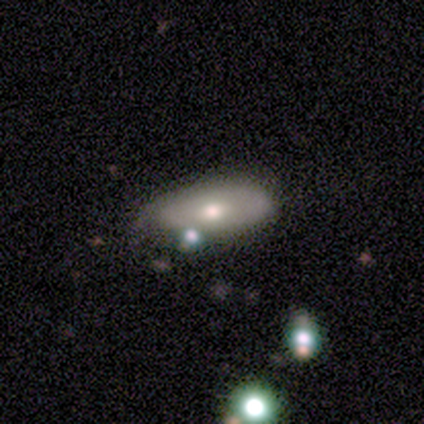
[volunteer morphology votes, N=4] Smooth or featured?
  - featured or disk: 75% *
  - star or artifact: 25%
  - smooth: 0%
Edge-on disk?
  - no: 67% *
  - yes: 33%
Bar?
  - no: 100% *
  - strong: 0%
  - weak: 0%
Spiral arms?
  - yes: 50% * (tied)
  - no: 50% * (tied)
Spiral winding?
  - tight: 100% *
  - medium: 0%
  - loose: 0%
Spiral arm count?
  - can't tell: 100% *
  - 1: 0%
  - 2: 0%
  - 3: 0%
  - 4: 0%
  - more than 4: 0%
Bulge size?
  - moderate: 100% *
  - dominant: 0%
  - large: 0%
  - small: 0%
  - none: 0%
Merging?
  - none: 67% *
  - merger: 33%
  - minor disturbance: 0%
  - major disturbance: 0%